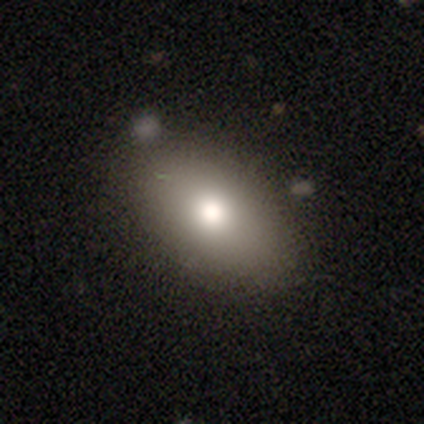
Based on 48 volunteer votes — Q: Smooth or featured?
A: smooth (79%); runner-up: featured or disk (10%)
Q: How rounded?
A: in between (87%); runner-up: cigar-shaped (8%)
Q: Merging?
A: none (84%); runner-up: minor disturbance (12%)